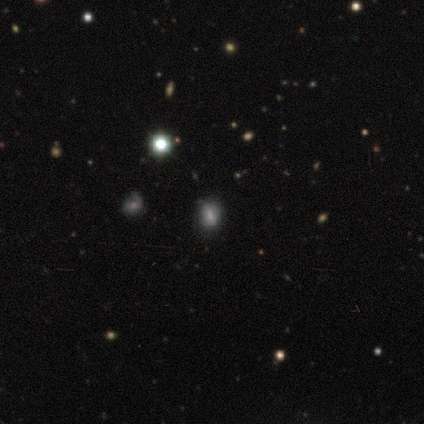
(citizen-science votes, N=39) Q: Smooth or featured?
A: smooth (54%); runner-up: star or artifact (33%)
Q: How rounded?
A: round (71%); runner-up: in between (29%)
Q: Merging?
A: none (88%); runner-up: merger (8%)